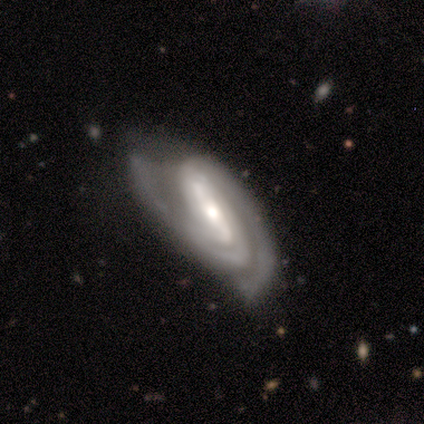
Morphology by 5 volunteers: smooth-or-featured: featured or disk: 100% | smooth: 0% | star or artifact: 0%
  disk-edge-on: no: 100% | yes: 0%
    bar: strong: 100% | weak: 0% | no: 0%
    has-spiral-arms: yes: 100% | no: 0%
      spiral-winding: tight: 60% | medium: 40% | loose: 0%
      spiral-arm-count: 3: 60% | 2: 40% | 1: 0% | 4: 0% | more than 4: 0% | can't tell: 0%
    bulge-size: moderate: 60% | small: 40% | dominant: 0% | large: 0% | none: 0%
  merging: none: 60% | minor disturbance: 40% | major disturbance: 0% | merger: 0%